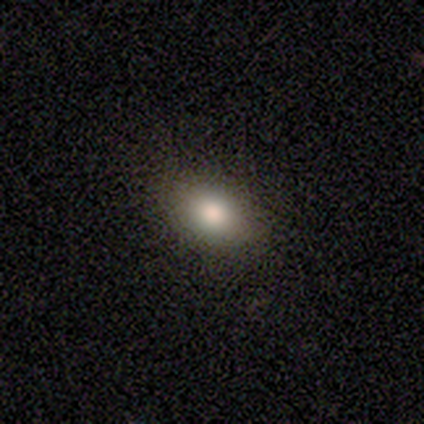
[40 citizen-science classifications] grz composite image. It shows a smooth galaxy with no disk features (80%) that is in between round and cigar-shaped (78%). Merging: none (58%).